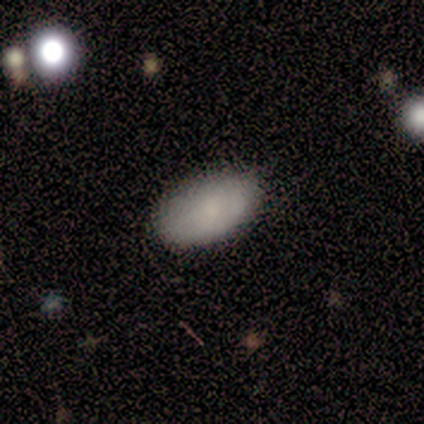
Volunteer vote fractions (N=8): Overall: smooth (88%). How rounded: in between (86%). Merging: none (57%; minor disturbance 43%).